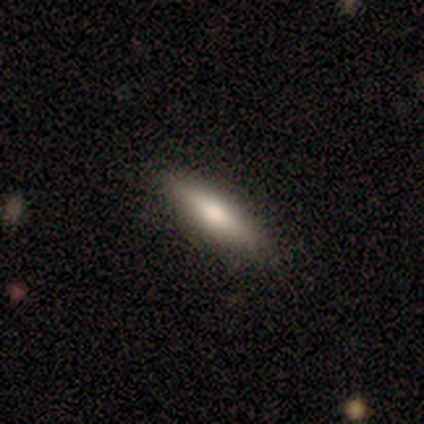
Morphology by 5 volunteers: This is clearly a smooth galaxy (80%). How rounded: possibly in between (50%, tied with cigar-shaped). Merging: clearly none (100%).